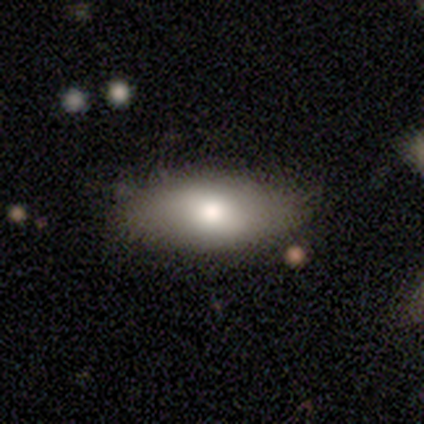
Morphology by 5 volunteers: Overall: smooth (100%). How rounded: in between (80%). Merging: none (100%).